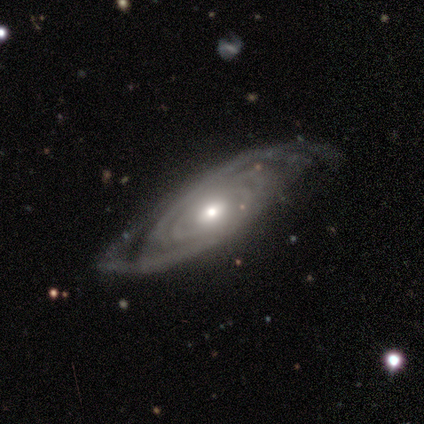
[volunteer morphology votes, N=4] featured or disk 100%, smooth 0%, star or artifact 0%. Down the decision tree: edge-on disk — no (100%); bar — strong (50%, tied with no); spiral arms — yes (100%); spiral arm count — 3 (50%); spiral winding — medium (75%); bulge size — moderate (50%, tied with small); merging — none (75%).